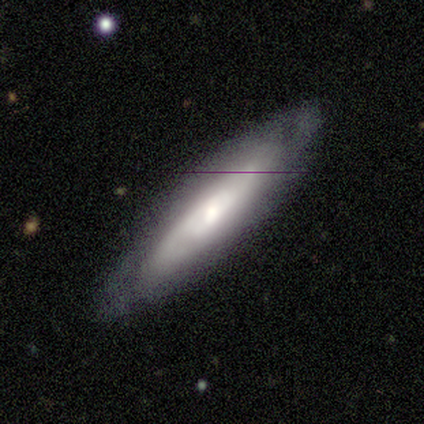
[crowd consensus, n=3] Q: Smooth or featured?
A: featured or disk (67%); runner-up: smooth (33%)
Q: Edge-on disk?
A: yes (50%); tied with: no (50%)
Q: Edge-on bulge?
A: rounded (100%)
Q: Merging?
A: none (100%)